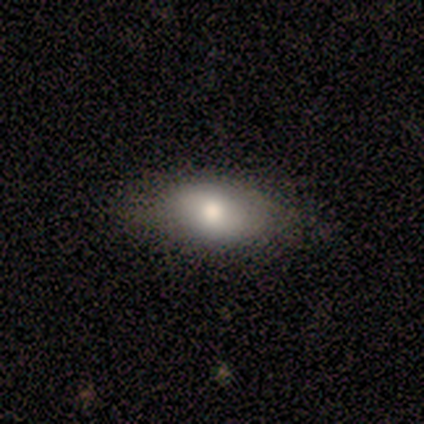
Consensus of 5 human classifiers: Volunteers were most divided on "merging": none: 80%, minor disturbance: 20%, major disturbance: 0%, merger: 0%. More confident: smooth or featured — smooth (100%); how rounded — in between (100%).